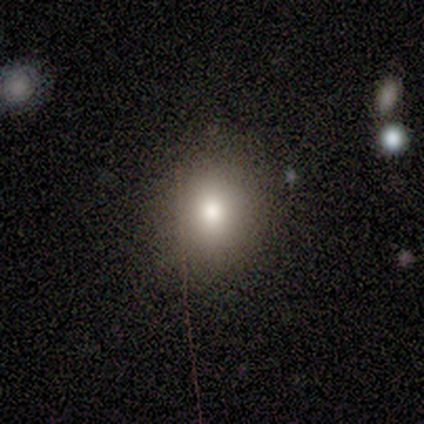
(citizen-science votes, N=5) Smooth or featured? 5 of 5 (100%) said smooth. How rounded? 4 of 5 (80%) said round. Merging? 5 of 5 (100%) said none.